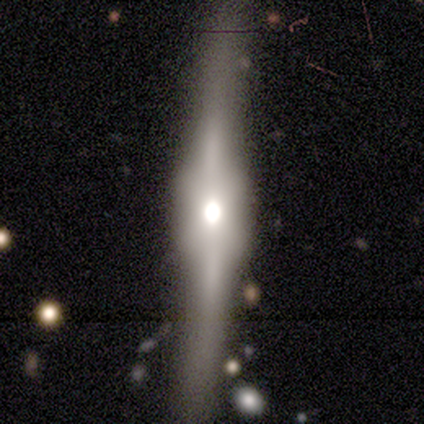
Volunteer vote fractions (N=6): Smooth or featured? 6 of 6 (100%) said featured or disk. Edge-on disk? 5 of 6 (83%) said yes. Edge-on bulge? 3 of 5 (60%) said boxy. Merging? 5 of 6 (83%) said none.